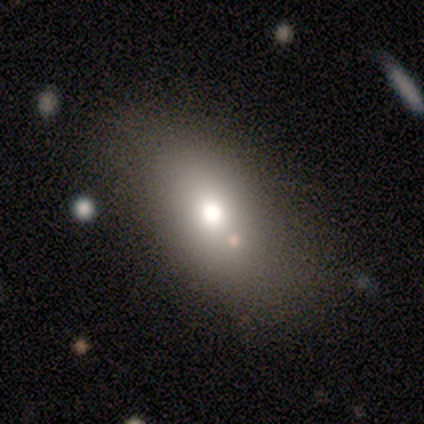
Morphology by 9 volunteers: Smooth or featured? 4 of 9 (44%, tied with featured or disk) said smooth. How rounded? 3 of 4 (75%) said in between. Merging? 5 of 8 (62%) said none.